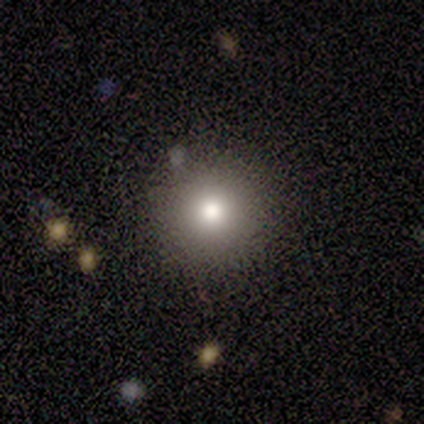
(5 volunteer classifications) Smooth or featured?
  - smooth: 100% *
  - featured or disk: 0%
  - star or artifact: 0%
How rounded?
  - round: 100% *
  - in between: 0%
  - cigar-shaped: 0%
Merging?
  - none: 80% *
  - minor disturbance: 20%
  - major disturbance: 0%
  - merger: 0%